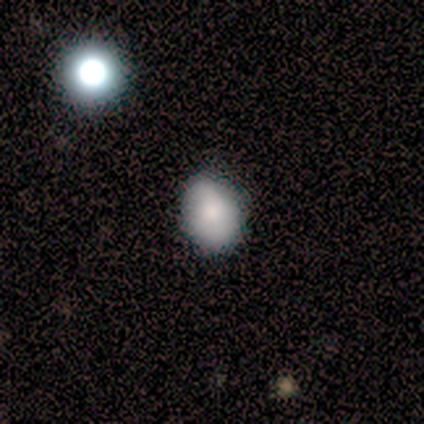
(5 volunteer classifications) Q: Smooth or featured?
A: star or artifact (60%); runner-up: smooth (20%)